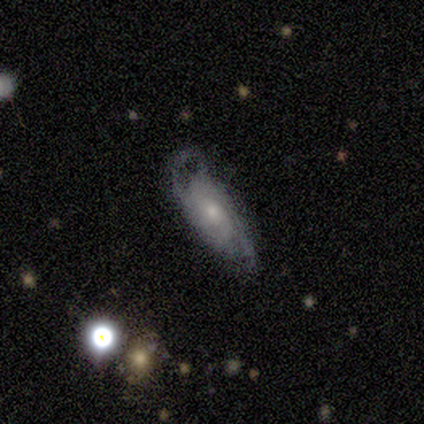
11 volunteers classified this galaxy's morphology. featured or disk 82%, smooth 9%, star or artifact 9%. Down the decision tree: edge-on disk — no (100%); bar — no (67%); spiral arms — yes (89%); spiral arm count — 2 (62%); spiral winding — tight (62%); bulge size — small (78%); merging — none (50%).